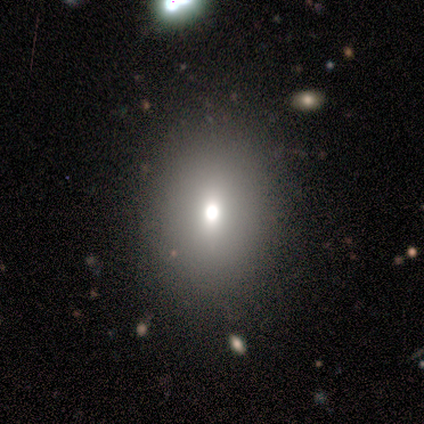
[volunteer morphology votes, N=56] Volunteers were most divided on "how rounded": in between: 65%, round: 35%, cigar-shaped: 0%. More confident: merging — none (90%); smooth or featured — smooth (71%).